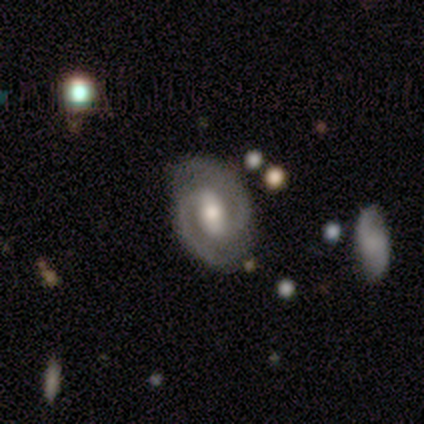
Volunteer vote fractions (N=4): Volunteers were most divided on "bulge size" (2-way tie): moderate: 50%, small: 50%, dominant: 0%, large: 0%, none: 0%. More confident: smooth or featured — featured or disk (100%); edge-on disk — no (100%); spiral arms — yes (100%); spiral winding — medium (100%); spiral arm count — 2 (100%); merging — none (100%); bar — weak (50%).